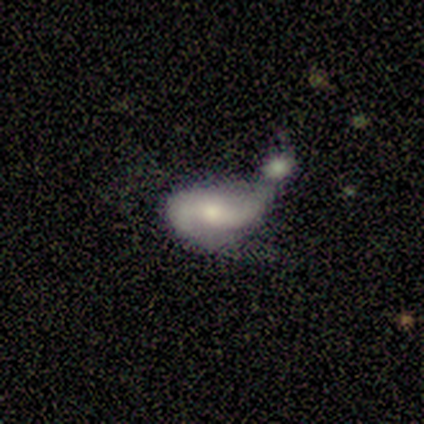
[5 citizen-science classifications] Morphology: type=featured or disk (60%); edge-on=no (100%); bar=no (67%); spiral arms=yes (100%); winding=loose (100%); arm count=2 (100%); bulge=moderate (67%); merging=minor disturbance (50%, tied with merger).